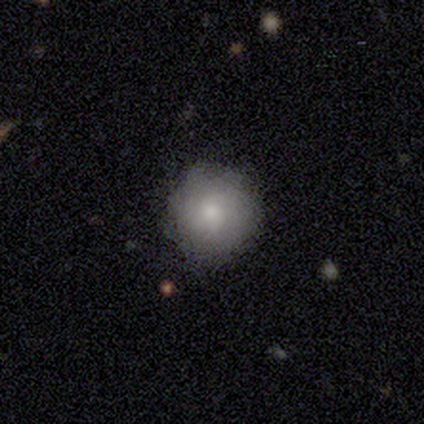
smooth_or_featured: smooth (p=1.00)
how_rounded: round (p=1.00)
merging: minor disturbance (p=0.60) [alt: none p=0.40]